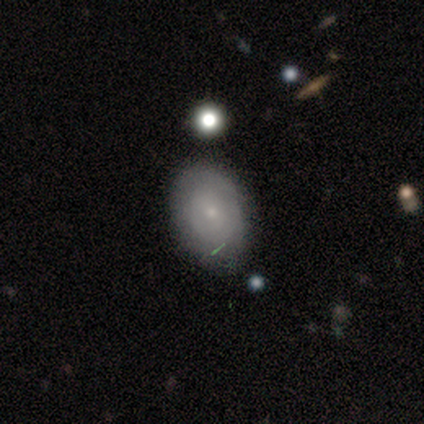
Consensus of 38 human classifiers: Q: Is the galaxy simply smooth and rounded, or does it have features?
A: smooth — 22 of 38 (58%).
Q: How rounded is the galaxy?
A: in between — 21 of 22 (95%).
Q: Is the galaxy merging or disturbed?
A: none — 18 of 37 (49%).